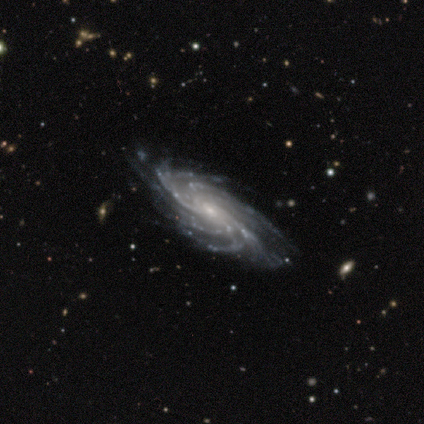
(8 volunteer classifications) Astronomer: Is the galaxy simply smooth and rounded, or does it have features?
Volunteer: featured or disk — 100%.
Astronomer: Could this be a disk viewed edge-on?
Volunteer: no — 100%.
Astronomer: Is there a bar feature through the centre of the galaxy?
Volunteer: no — 62%.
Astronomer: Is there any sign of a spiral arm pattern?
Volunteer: yes — 100%.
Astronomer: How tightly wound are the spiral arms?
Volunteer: tight — 88%.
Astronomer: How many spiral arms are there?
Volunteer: more than 4 — 88%.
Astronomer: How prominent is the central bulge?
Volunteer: small — 62%.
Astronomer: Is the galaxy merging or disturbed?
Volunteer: none — 100%.